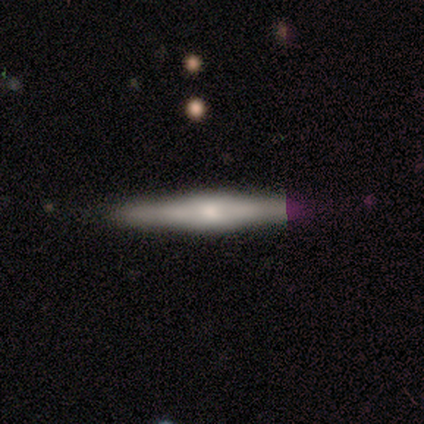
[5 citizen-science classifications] smooth_or_featured: featured or disk (p=0.80) [alt: smooth p=0.20]
disk_edge_on: yes (p=1.00)
edge_on_bulge: rounded (p=0.50) [alt: boxy p=0.25]
merging: none (p=1.00)